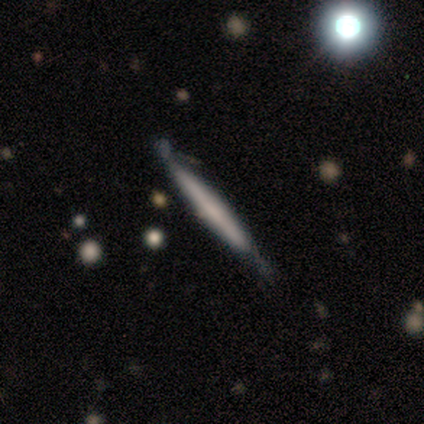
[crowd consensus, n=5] Smooth or featured? 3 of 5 (60%) said featured or disk. Edge-on disk? 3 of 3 (100%) said yes. Edge-on bulge? 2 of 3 (67%) said rounded. Merging? 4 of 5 (80%) said none.